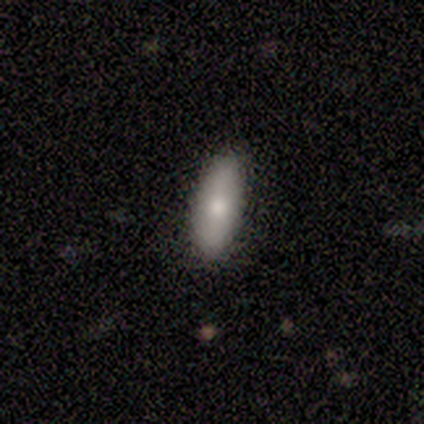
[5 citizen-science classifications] A smooth galaxy with no disk features (100%) that is in between round and cigar-shaped (60%). Merging: none (100%).